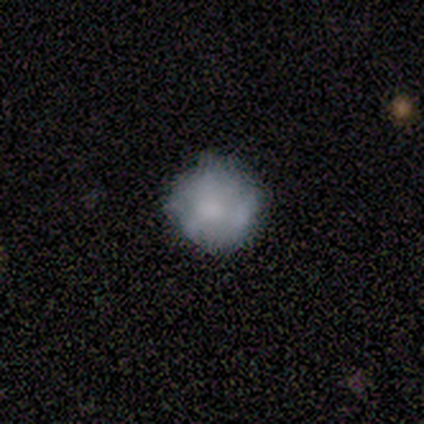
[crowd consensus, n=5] featured or disk 60%, smooth 20%, star or artifact 20%. Down the decision tree: edge-on disk — no (100%); bar — no (100%); spiral arms — no (100%); bulge size — moderate (67%); merging — none (75%).